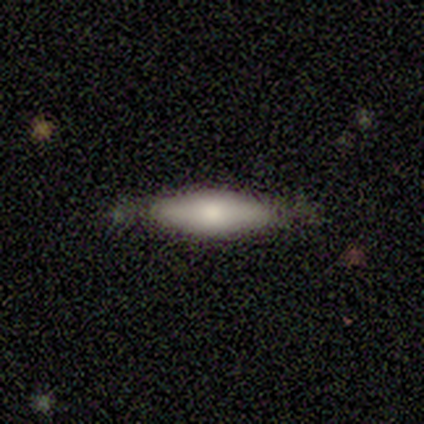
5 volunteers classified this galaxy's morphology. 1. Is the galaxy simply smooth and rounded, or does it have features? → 60% smooth, 40% featured or disk, 0% star or artifact.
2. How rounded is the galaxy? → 100% in between, 0% round, 0% cigar-shaped.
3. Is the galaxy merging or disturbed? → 60% none, 40% minor disturbance, 0% major disturbance, 0% merger.